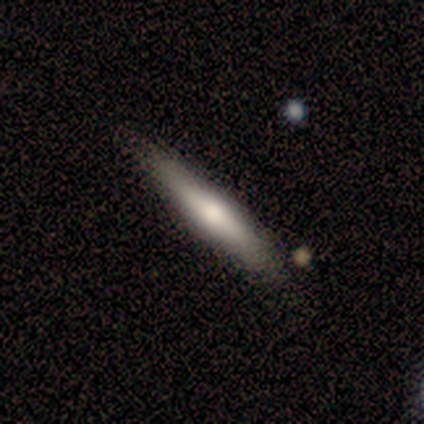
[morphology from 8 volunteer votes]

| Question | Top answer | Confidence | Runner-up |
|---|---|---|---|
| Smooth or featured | smooth | 62% | featured or disk (38%) |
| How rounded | cigar-shaped | 100% | — |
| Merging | none | 75% | minor disturbance (25%) |